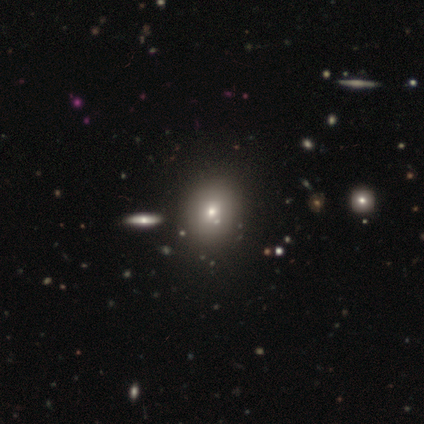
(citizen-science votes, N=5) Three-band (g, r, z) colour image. It shows a smooth galaxy with no disk features (60%) that is round (100%). Merging: none (100%).